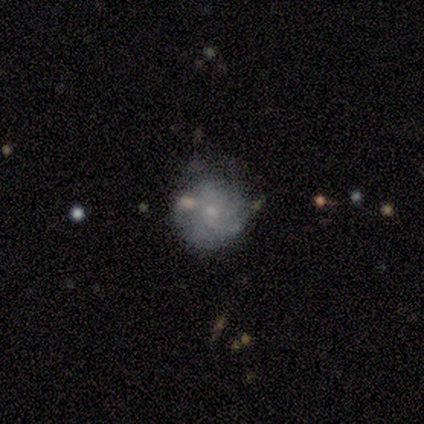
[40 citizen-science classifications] Overall: featured or disk (55%; smooth 38%). Edge-on disk: no (95%). Bar: no (86%). Spiral arms: yes (86%). Spiral arm count: can't tell (61%; 3 22%). Spiral winding: tight (61%; loose 22%). Bulge size: small (86%). Merging: none (59%; minor disturbance 24%).